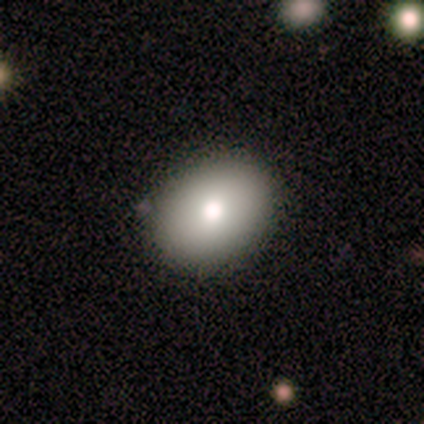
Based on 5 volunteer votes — smooth 60%, featured or disk 40%, star or artifact 0%. Down the decision tree: how rounded — in between (67%); merging — none (100%).